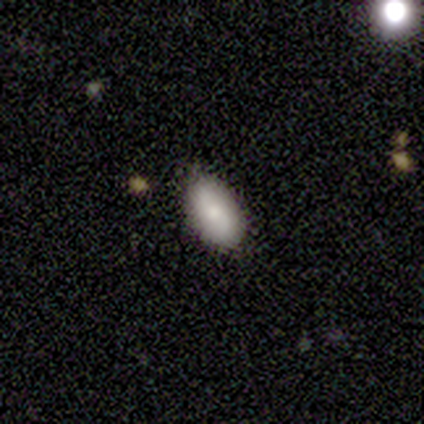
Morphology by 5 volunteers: Volunteers were most divided on "merging": none: 60%, minor disturbance: 40%, major disturbance: 0%, merger: 0%. More confident: smooth or featured — smooth (100%); how rounded — in between (100%).